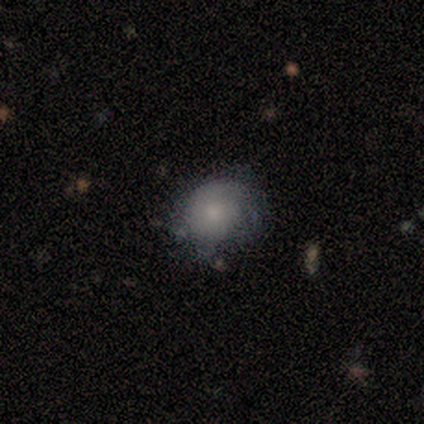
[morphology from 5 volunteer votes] Q: Smooth or featured?
A: smooth (80%); runner-up: featured or disk (20%)
Q: How rounded?
A: round (100%)
Q: Merging?
A: minor disturbance (60%); runner-up: none (40%)